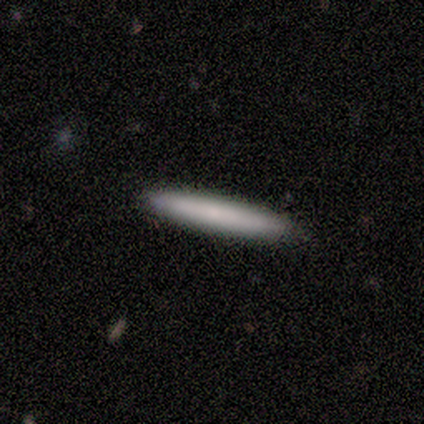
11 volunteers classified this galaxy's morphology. Smooth or featured: smooth — 82% (featured or disk — 9%)
How rounded: cigar-shaped — 100%
Merging: none — 90% (minor disturbance — 10%)